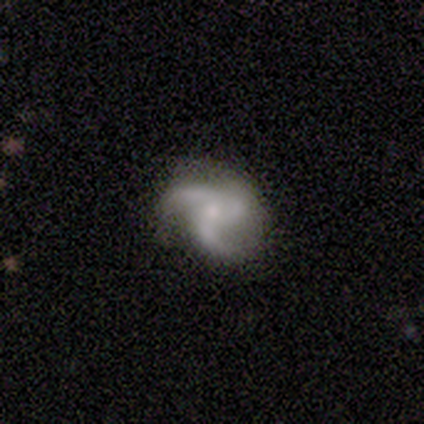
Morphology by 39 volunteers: Overall: featured or disk (79%). Edge-on disk: no (100%). Bar: no (84%). Spiral arms: yes (97%). Spiral arm count: 3 (77%). Spiral winding: medium (47%, tied with loose). Bulge size: small (45%; moderate 42%). Merging: none (71%).